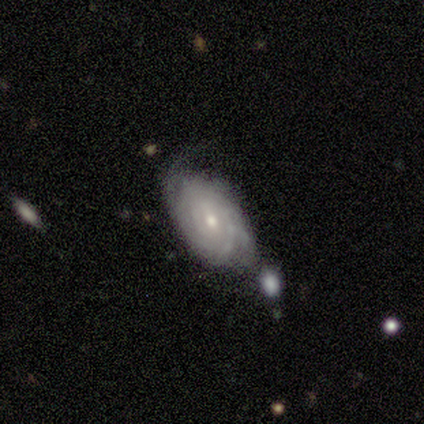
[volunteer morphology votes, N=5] This appears to be a featured or disk galaxy (80%) with a weak bar (50%, tied with no), 2 (25%, tied with 3, more than 4 and can't tell) tight (100%) spiral arms (100%) and a small central bulge (75%). Merging: minor disturbance (60%).